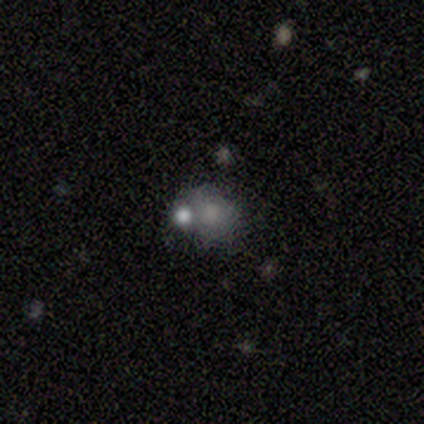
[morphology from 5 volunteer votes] type=smooth (60%); roundness=round (33%, tied with in between and cigar-shaped); merging=minor disturbance (40%, tied with merger).